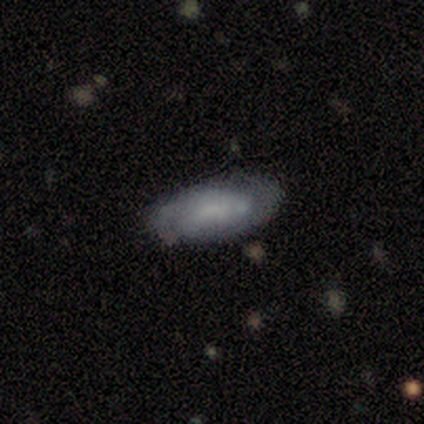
Smooth or featured?
  - smooth: 60% *
  - featured or disk: 40%
  - star or artifact: 0%
How rounded?
  - in between: 100% *
  - round: 0%
  - cigar-shaped: 0%
Merging?
  - minor disturbance: 60% *
  - none: 40%
  - major disturbance: 0%
  - merger: 0%